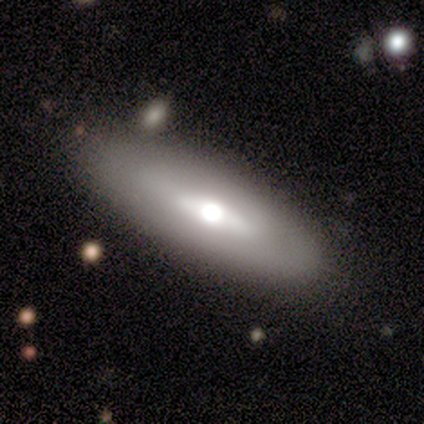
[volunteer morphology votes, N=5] Q: Smooth or featured?
A: featured or disk (60%); runner-up: smooth (40%)
Q: Edge-on disk?
A: yes (100%)
Q: Edge-on bulge?
A: rounded (67%); runner-up: boxy (33%)
Q: Merging?
A: none (80%); runner-up: minor disturbance (20%)